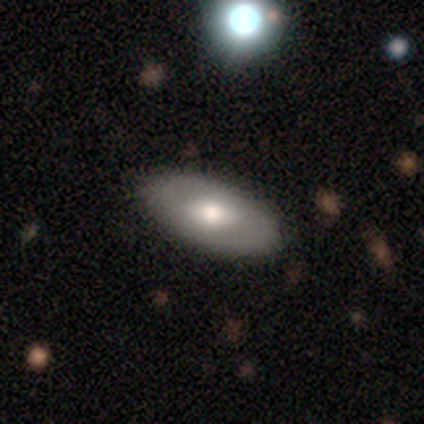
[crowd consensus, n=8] Volunteers were most divided on "smooth or featured": featured or disk: 62%, smooth: 38%, star or artifact: 0%. More confident: edge-on disk — no (80%); bar — no (75%); spiral arms — no (75%); bulge size — moderate (75%); merging — none (75%).